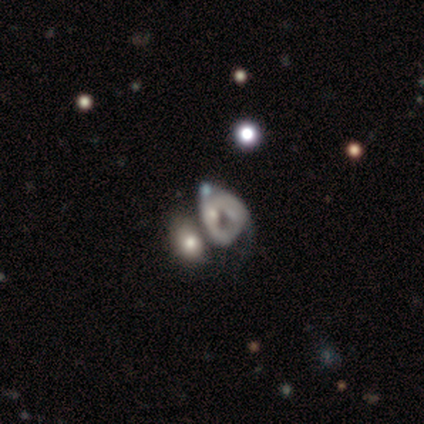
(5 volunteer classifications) This appears to be a smooth galaxy with no disk features (40%, tied with featured or disk) that is in between round and cigar-shaped (100%). Merging: merger (50%).